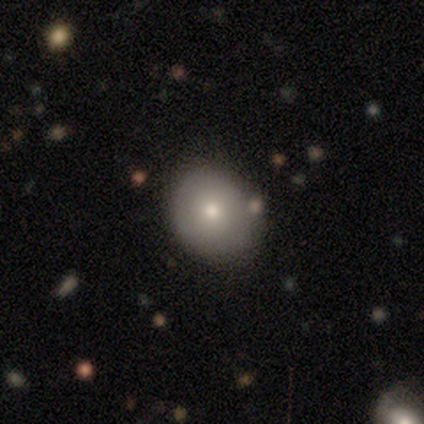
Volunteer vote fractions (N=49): Smooth or featured? 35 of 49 (71%) said smooth. How rounded? 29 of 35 (83%) said round. Merging? 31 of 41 (76%) said none.